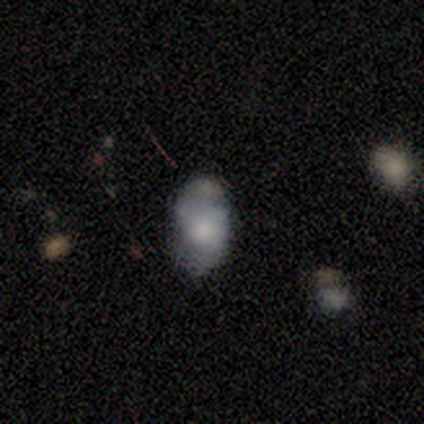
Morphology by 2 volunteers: A smooth galaxy with no disk features (50%, tied with featured or disk) that is in between round and cigar-shaped (100%).

Vote fractions:
- Smooth or featured? smooth: 50% (tied) / featured or disk: 50% (tied) / star or artifact: 0%
- How rounded? in between: 100% / round: 0% / cigar-shaped: 0%
- Merging? merger: 100% / none: 0% / minor disturbance: 0% / major disturbance: 0%